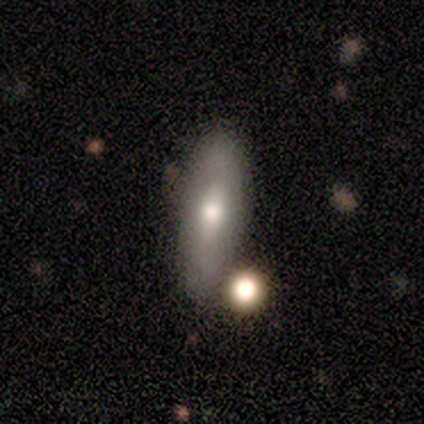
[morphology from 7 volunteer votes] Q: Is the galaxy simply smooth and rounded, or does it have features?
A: featured or disk — 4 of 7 (57%).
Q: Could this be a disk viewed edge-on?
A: yes — 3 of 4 (75%).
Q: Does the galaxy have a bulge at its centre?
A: rounded — 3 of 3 (100%).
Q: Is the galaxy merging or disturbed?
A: none — 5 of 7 (71%).